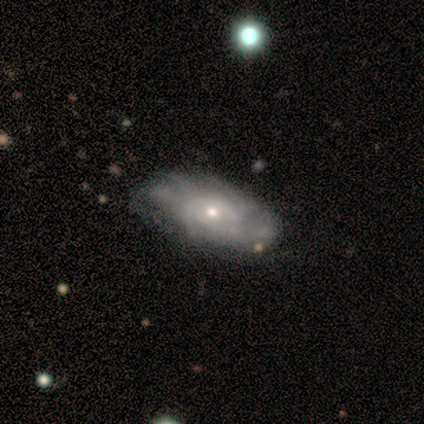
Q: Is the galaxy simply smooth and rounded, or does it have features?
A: featured or disk — 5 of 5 (100%).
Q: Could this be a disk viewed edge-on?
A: no — 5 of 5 (100%).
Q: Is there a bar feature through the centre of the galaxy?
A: no — 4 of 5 (80%).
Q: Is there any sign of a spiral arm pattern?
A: yes — 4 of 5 (80%).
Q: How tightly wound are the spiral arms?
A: tight — 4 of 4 (100%).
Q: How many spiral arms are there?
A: can't tell — 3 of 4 (75%).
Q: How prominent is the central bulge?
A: small — 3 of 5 (60%).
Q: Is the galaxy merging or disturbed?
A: none — 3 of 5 (60%).